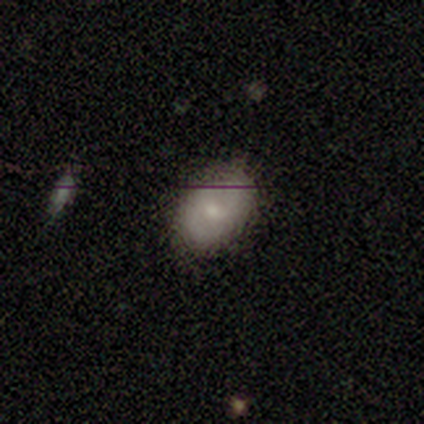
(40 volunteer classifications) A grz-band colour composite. It shows a smooth galaxy with no disk features (75%) that is in between round and cigar-shaped (87%). Merging: none (85%).